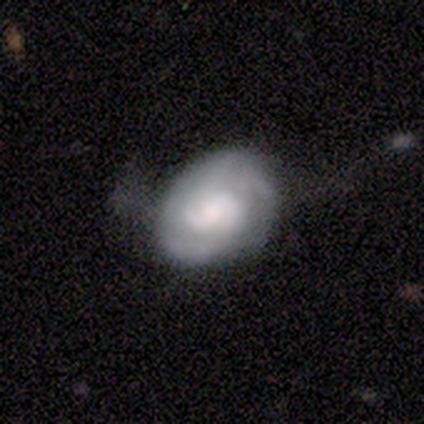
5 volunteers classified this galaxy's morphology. Smooth or featured? smooth (60%)
How rounded? round (67%)
Merging? none (60%)